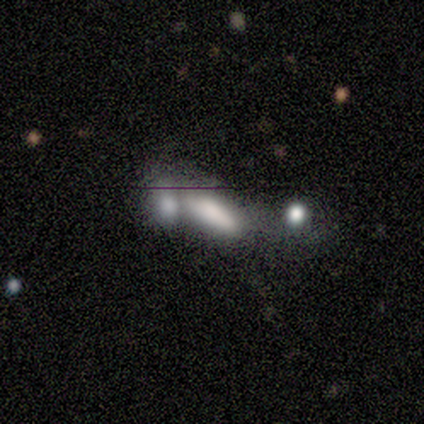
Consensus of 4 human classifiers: smooth-or-featured: smooth: 75% | star or artifact: 25% | featured or disk: 0%
  how-rounded: in between: 67% | cigar-shaped: 33% | round: 0%
  merging: merger: 67% | none: 33% | minor disturbance: 0% | major disturbance: 0%